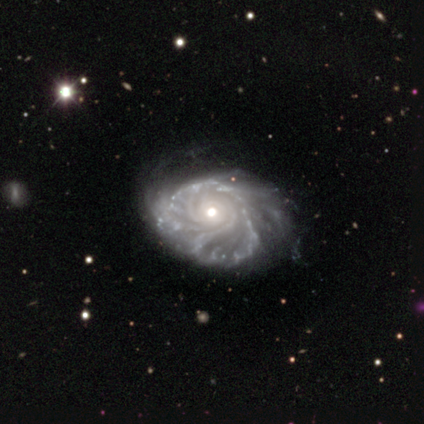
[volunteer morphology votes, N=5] Overall: featured or disk (100%). Edge-on disk: no (100%). Bar: no (80%). Spiral arms: yes (100%). Spiral arm count: more than 4 (40%; 2 20%). Spiral winding: tight (80%). Bulge size: moderate (80%). Merging: none (40%, tied with major disturbance).